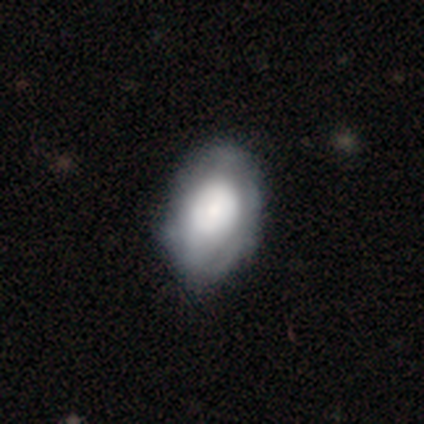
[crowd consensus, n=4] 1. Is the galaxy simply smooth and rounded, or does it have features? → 50% smooth (tied), 50% featured or disk (tied), 0% star or artifact.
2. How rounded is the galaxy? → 100% in between, 0% round, 0% cigar-shaped.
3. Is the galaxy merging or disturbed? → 75% none, 25% minor disturbance, 0% major disturbance, 0% merger.